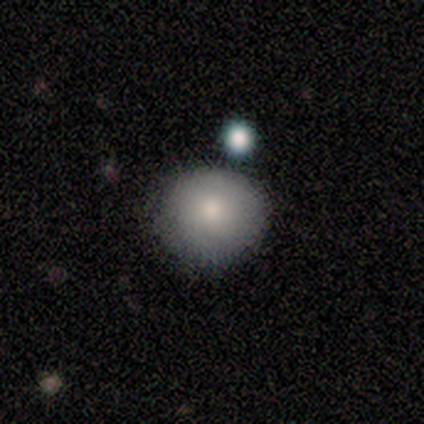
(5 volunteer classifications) Overall: smooth (100%). How rounded: round (80%). Merging: none (80%).